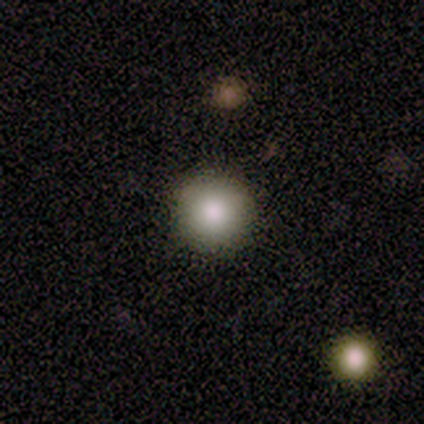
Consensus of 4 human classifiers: This appears to be a smooth galaxy with no disk features (100%) that is round (100%). Merging: none (75%).